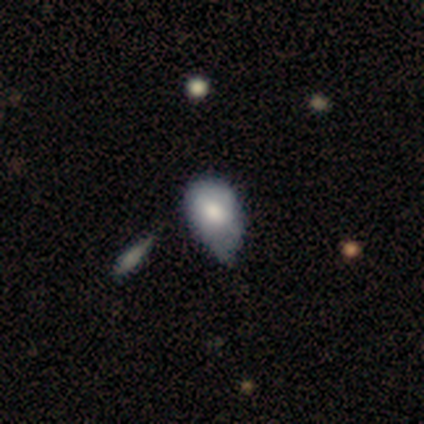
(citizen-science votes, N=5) Smooth or featured?
  - smooth: 80% *
  - featured or disk: 20%
  - star or artifact: 0%
How rounded?
  - in between: 75% *
  - round: 25%
  - cigar-shaped: 0%
Merging?
  - minor disturbance: 100% *
  - none: 0%
  - major disturbance: 0%
  - merger: 0%